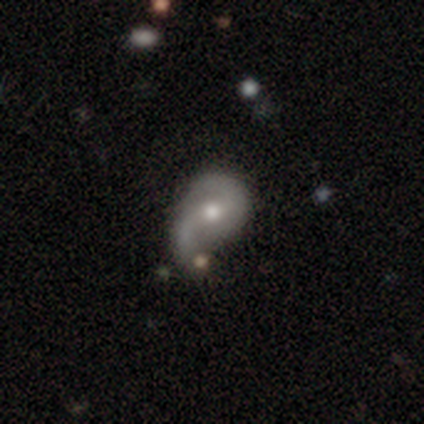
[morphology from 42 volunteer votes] Smooth or featured? 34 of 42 (81%) said featured or disk. Edge-on disk? 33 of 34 (97%) said no. Bar? 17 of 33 (52%) said no. Spiral arms? 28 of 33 (85%) said yes. Spiral winding? 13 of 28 (46%) said medium. Spiral arm count? 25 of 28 (89%) said 2. Bulge size? 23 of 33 (70%) said moderate. Merging? 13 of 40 (32%) said none.